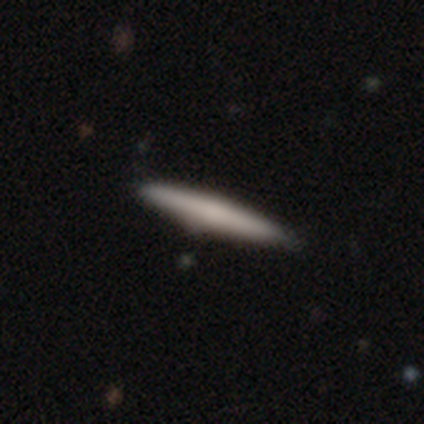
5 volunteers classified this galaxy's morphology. A smooth galaxy with no disk features (80%) that is cigar-shaped (100%). Merging: none (80%).